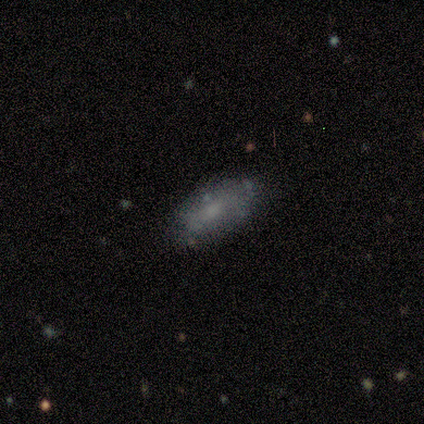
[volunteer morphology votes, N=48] Smooth or featured? smooth (56%)
How rounded? in between (89%)
Merging? none (72%)